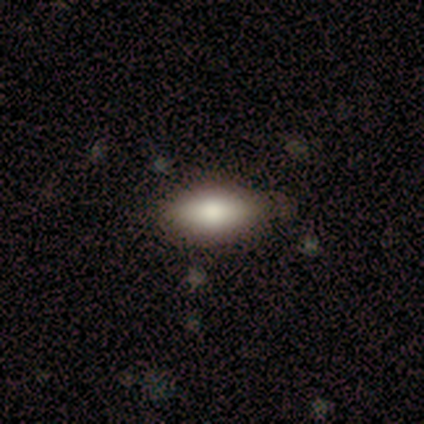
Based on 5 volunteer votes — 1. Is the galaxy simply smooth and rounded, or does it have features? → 100% smooth, 0% featured or disk, 0% star or artifact.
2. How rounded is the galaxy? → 80% in between, 20% round, 0% cigar-shaped.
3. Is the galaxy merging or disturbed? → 100% none, 0% minor disturbance, 0% major disturbance, 0% merger.